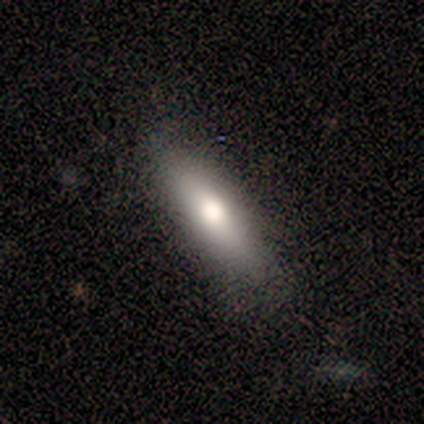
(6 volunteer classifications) smooth 67%, featured or disk 33%, star or artifact 0%. Down the decision tree: how rounded — cigar-shaped (75%); merging — none (83%).